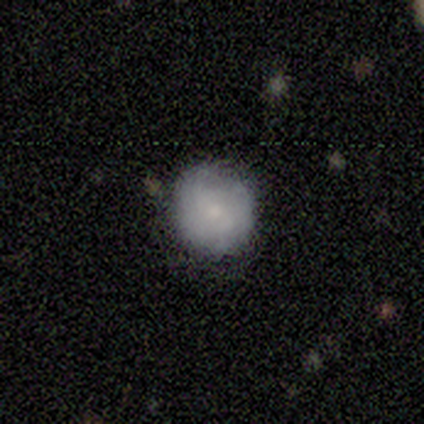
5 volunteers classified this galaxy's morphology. This is marginally a smooth galaxy (40%, tied with featured or disk). How rounded: clearly round (100%). Merging: likely none (75%).